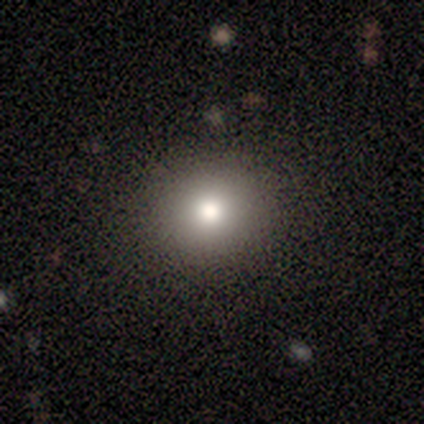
Overall: smooth (75%). How rounded: round (100%). Merging: none (100%).